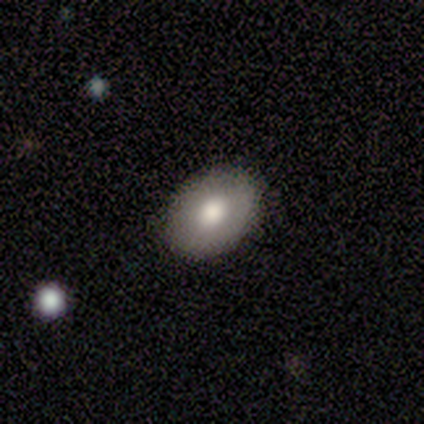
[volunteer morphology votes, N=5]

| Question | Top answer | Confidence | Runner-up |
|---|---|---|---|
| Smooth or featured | smooth | 100% | — |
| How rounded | in between | 100% | — |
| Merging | none | 100% | — |